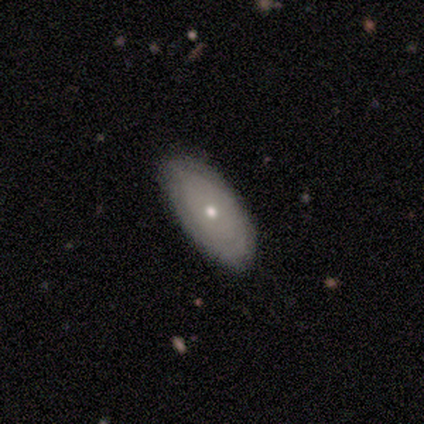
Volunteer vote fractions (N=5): smooth-or-featured: smooth: 100% | featured or disk: 0% | star or artifact: 0%
  how-rounded: in between: 100% | round: 0% | cigar-shaped: 0%
  merging: none: 80% | minor disturbance: 20% | major disturbance: 0% | merger: 0%